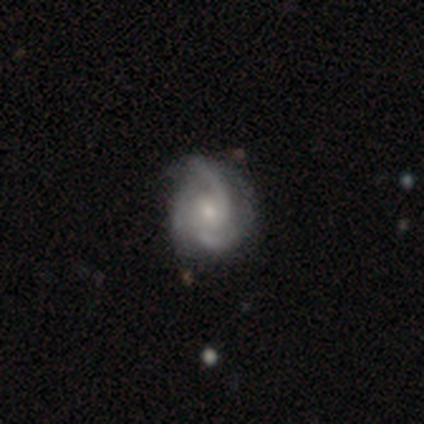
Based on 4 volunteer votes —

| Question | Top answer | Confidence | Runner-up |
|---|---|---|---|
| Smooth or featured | featured or disk | 100% | — |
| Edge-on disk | no | 75% | yes (25%) |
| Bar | weak | 100% | — |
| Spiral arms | yes | 100% | — |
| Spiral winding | loose | 67% | medium (33%) |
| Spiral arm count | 1 | 33% | tied: 2 (33%), 3 (33%) |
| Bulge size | small | 67% | moderate (33%) |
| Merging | none | 75% | minor disturbance (25%) |